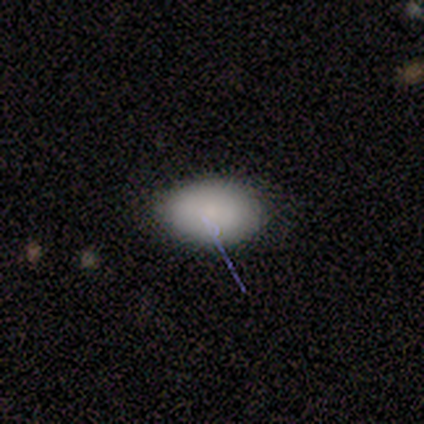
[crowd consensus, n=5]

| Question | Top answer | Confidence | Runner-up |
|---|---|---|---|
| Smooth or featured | smooth | 80% | featured or disk (20%) |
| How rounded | in between | 100% | — |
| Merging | none | 80% | major disturbance (20%) |